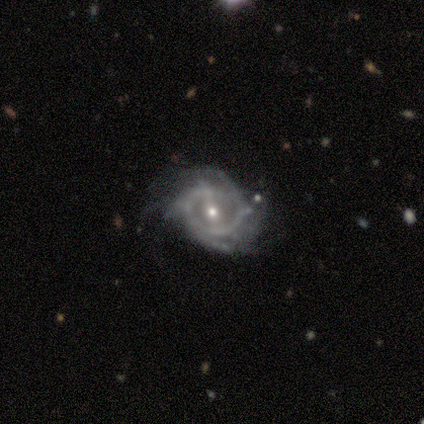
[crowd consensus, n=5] A featured or disk galaxy (100%) with a strong bar (40%, tied with no), medium (40%, tied with loose) spiral arms (100%) and a small central bulge (60%).

Vote fractions:
- Smooth or featured? featured or disk: 100% / smooth: 0% / star or artifact: 0%
- Edge-on disk? no: 100% / yes: 0%
- Bar? strong: 40% (tied) / no: 40% (tied) / weak: 20%
- Spiral arms? yes: 100% / no: 0%
- Spiral winding? medium: 40% (tied) / loose: 40% (tied) / tight: 20%
- Spiral arm count? can't tell: 60% / 2: 40% / 1: 0% / 3: 0% / 4: 0% / more than 4: 0%
- Bulge size? small: 60% / moderate: 40% / dominant: 0% / large: 0% / none: 0%
- Merging? none: 40% (tied) / minor disturbance: 40% (tied) / major disturbance: 20% / merger: 0%